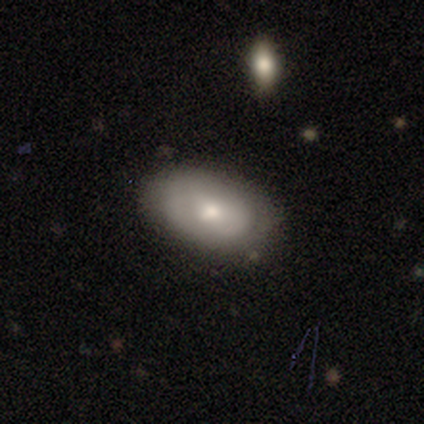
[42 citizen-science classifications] Volunteers were most divided on "smooth or featured": smooth: 60%, featured or disk: 36%, star or artifact: 5%. More confident: how rounded — in between (92%); merging — none (70%).